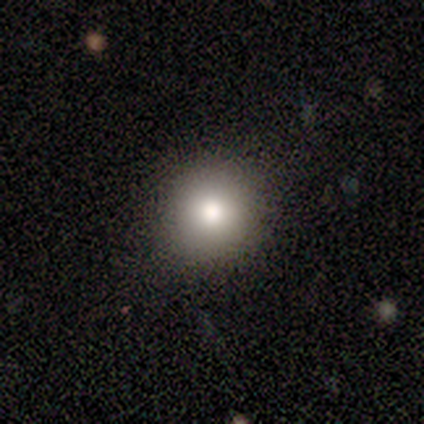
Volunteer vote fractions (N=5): Volunteers were most divided on "merging": none: 75%, minor disturbance: 25%, major disturbance: 0%, merger: 0%. More confident: how rounded — round (100%); smooth or featured — smooth (80%).